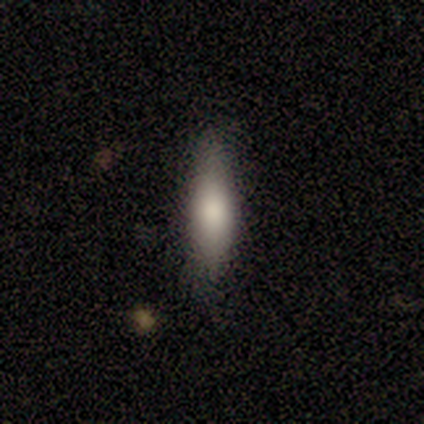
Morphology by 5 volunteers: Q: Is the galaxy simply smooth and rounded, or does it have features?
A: smooth — 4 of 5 (80%).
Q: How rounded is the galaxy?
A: cigar-shaped — 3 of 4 (75%).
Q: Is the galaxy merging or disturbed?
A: none — 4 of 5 (80%).